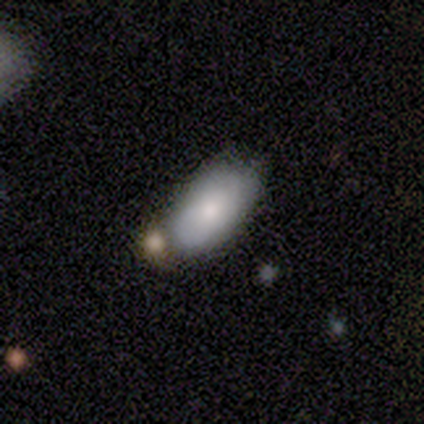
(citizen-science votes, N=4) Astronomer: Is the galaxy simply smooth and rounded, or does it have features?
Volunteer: smooth — 50%, tied with featured or disk at 50%.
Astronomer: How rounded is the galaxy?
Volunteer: in between — 100%.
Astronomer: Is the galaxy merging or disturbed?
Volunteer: none — 100%.